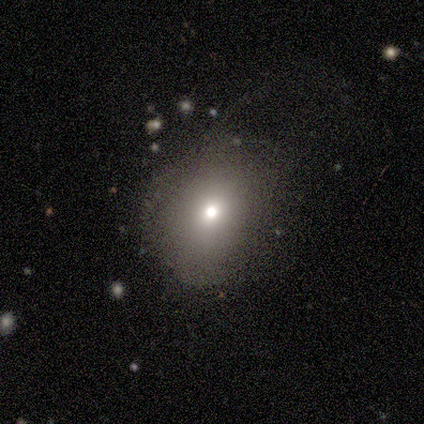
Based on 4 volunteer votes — smooth-or-featured: smooth: 75% | star or artifact: 25% | featured or disk: 0%
  how-rounded: round: 100% | in between: 0% | cigar-shaped: 0%
  merging: none: 100% | minor disturbance: 0% | major disturbance: 0% | merger: 0%